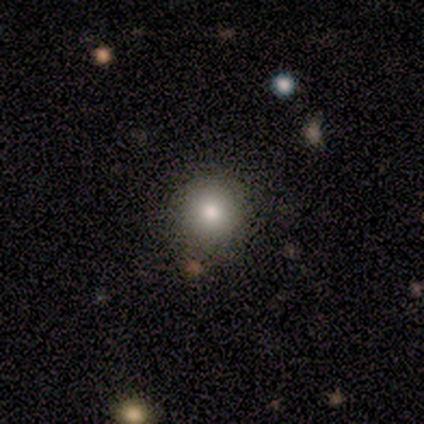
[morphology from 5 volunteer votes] Smooth or featured? smooth (60%)
How rounded? round (100%)
Merging? none (100%)